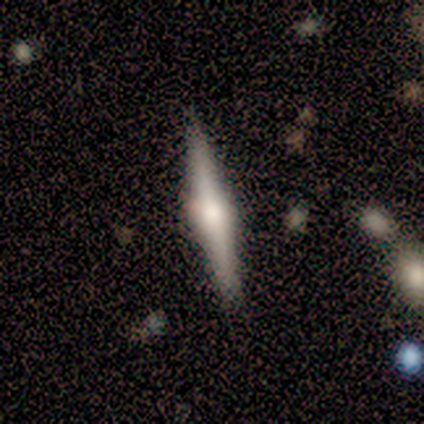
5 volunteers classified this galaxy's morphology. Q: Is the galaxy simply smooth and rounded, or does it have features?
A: featured or disk — 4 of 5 (80%).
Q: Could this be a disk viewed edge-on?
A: yes — 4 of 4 (100%).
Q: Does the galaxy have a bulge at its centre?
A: rounded — 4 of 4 (100%).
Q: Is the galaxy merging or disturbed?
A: none — 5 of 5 (100%).